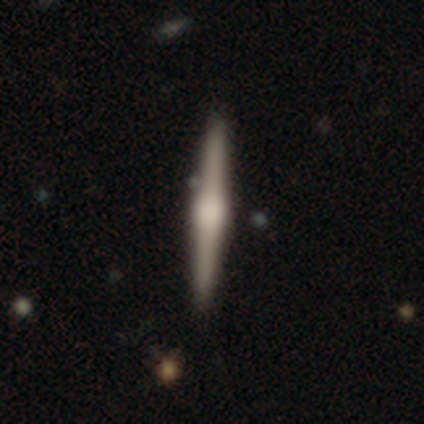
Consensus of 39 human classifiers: Smooth or featured? featured or disk (72%)
Edge-on disk? yes (100%)
Edge-on bulge? rounded (75%)
Merging? none (94%)